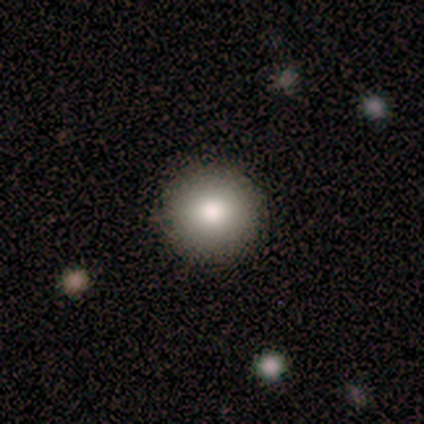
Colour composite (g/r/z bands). It shows a smooth galaxy with no disk features (86%) that is round (100%). Merging: none (86%).